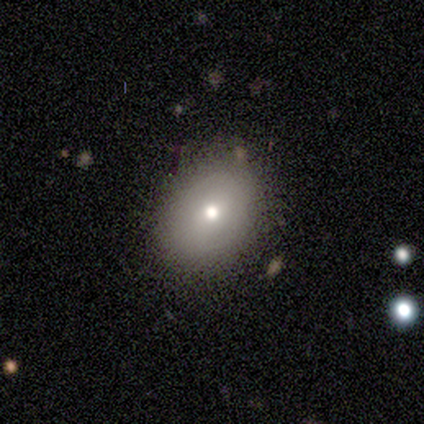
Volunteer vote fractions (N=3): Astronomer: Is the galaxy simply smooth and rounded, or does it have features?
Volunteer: smooth — 67%.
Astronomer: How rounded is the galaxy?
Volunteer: round — 100%.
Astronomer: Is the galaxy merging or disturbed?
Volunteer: none — 100%.